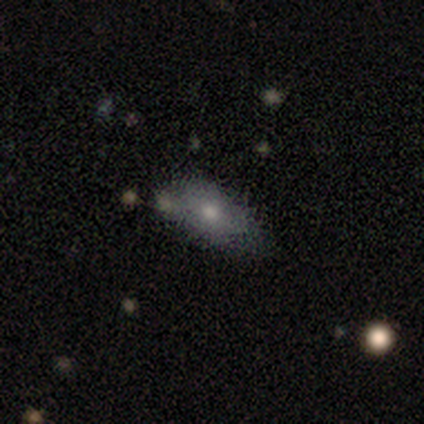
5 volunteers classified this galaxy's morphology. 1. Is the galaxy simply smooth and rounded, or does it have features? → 80% smooth, 20% star or artifact, 0% featured or disk.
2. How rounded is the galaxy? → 100% in between, 0% round, 0% cigar-shaped.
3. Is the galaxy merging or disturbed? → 75% none, 25% minor disturbance, 0% major disturbance, 0% merger.